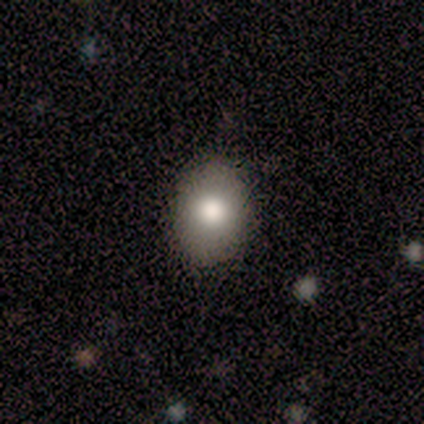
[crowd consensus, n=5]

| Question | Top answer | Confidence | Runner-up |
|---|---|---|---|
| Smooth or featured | smooth | 80% | featured or disk (20%) |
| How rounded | in between | 100% | — |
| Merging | none | 60% | minor disturbance (40%) |